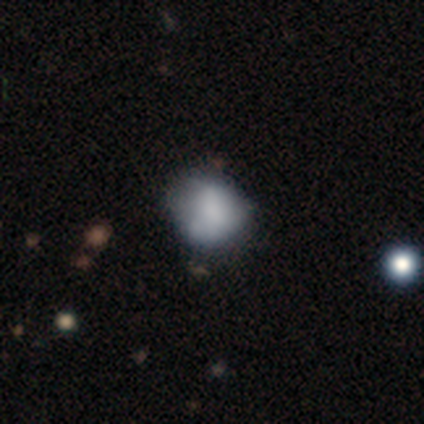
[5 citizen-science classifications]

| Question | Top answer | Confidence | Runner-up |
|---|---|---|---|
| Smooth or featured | smooth | 80% | featured or disk (20%) |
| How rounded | round | 75% | in between (25%) |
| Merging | none | 60% | major disturbance (40%) |